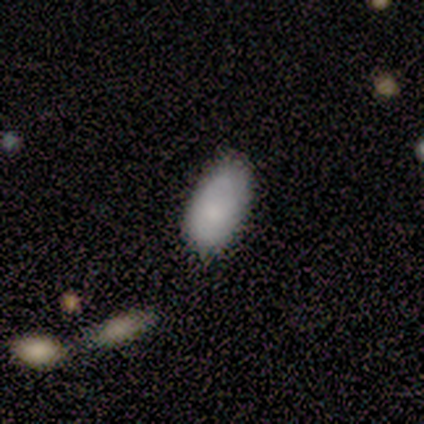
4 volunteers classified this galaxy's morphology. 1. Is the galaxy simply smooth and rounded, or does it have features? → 75% smooth, 25% featured or disk, 0% star or artifact.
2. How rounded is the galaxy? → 100% in between, 0% round, 0% cigar-shaped.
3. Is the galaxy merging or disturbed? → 75% none, 25% minor disturbance, 0% major disturbance, 0% merger.